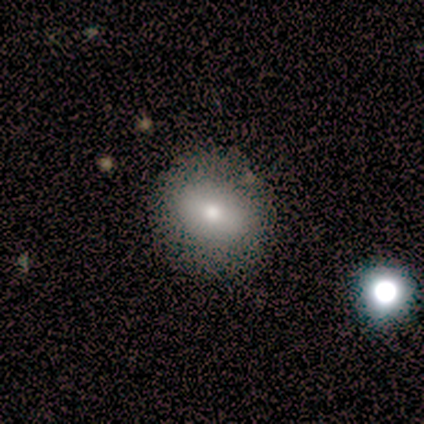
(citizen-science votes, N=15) Smooth or featured? smooth (93%)
How rounded? round (71%)
Merging? none (87%)